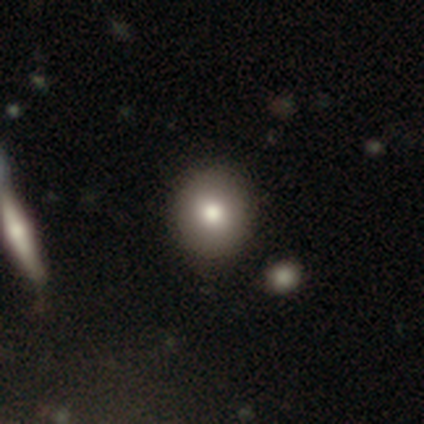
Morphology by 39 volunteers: This appears to be a smooth galaxy with no disk features (69%) that is round (89%). Merging: none (88%).